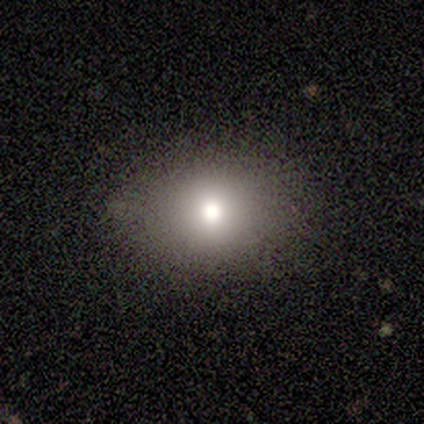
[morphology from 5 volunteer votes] Smooth or featured? smooth (60%)
How rounded? in between (67%)
Merging? none (100%)